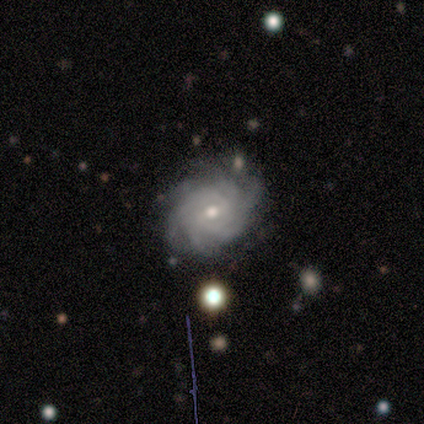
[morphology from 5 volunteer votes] type=featured or disk (100%); edge-on=no (100%); bar=no (60%); spiral arms=yes (100%); winding=tight (100%); arm count=3 (40%, tied with more than 4); bulge=small (80%); merging=none (100%).